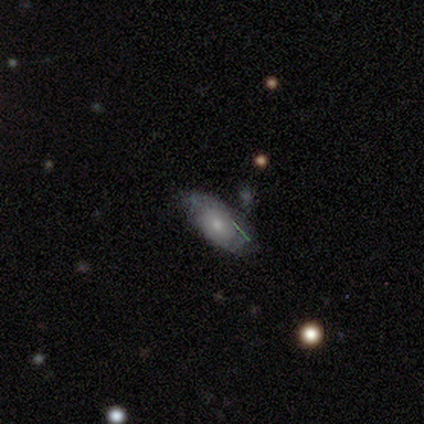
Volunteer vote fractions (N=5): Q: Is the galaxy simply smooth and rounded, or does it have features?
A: smooth — 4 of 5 (80%).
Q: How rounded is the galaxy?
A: in between — 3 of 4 (75%).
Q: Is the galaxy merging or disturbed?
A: none — 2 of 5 (40%, tied with minor disturbance).